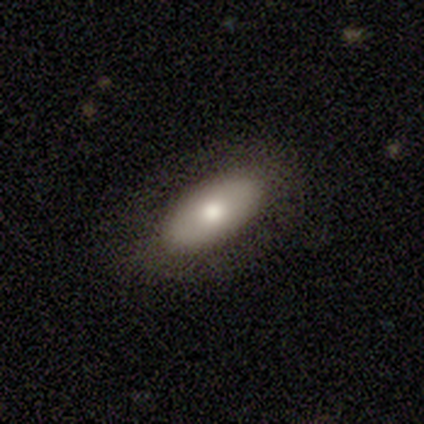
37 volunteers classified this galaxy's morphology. Overall: smooth (68%; featured or disk 30%). How rounded: in between (88%). Merging: none (89%).